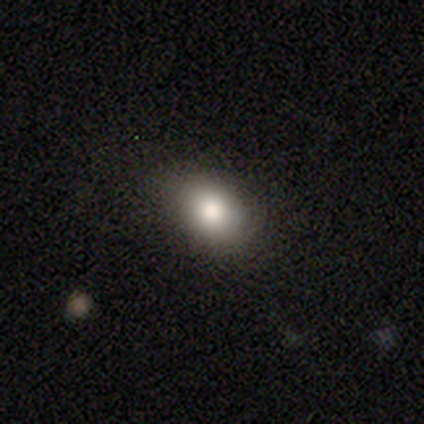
Smooth or featured? 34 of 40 (85%) said smooth. How rounded? 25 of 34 (74%) said in between. Merging? 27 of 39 (69%) said none.